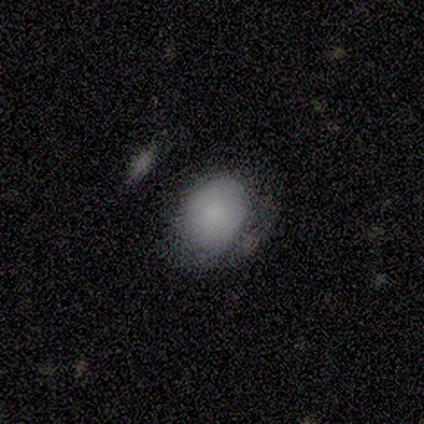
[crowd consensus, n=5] Morphology: type=smooth (80%); roundness=in between (100%); merging=minor disturbance (75%).